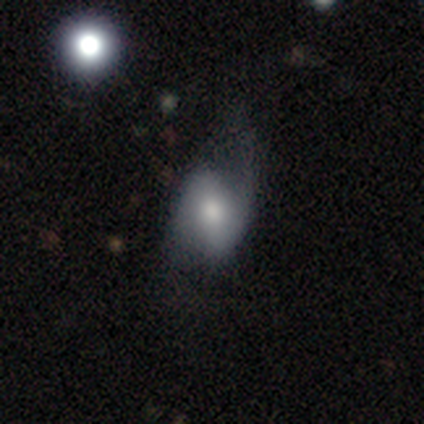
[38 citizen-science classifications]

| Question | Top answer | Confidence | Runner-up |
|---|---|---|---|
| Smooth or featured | featured or disk | 55% | smooth (39%) |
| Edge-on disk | no | 90% | yes (10%) |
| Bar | weak | 47% | no (32%) |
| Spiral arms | yes | 79% | no (21%) |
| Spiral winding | loose | 73% | tight (13%) |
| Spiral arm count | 2 | 87% | 1 (13%) |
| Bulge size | moderate | 63% | small (21%) |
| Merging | none | 50% | minor disturbance (28%) |